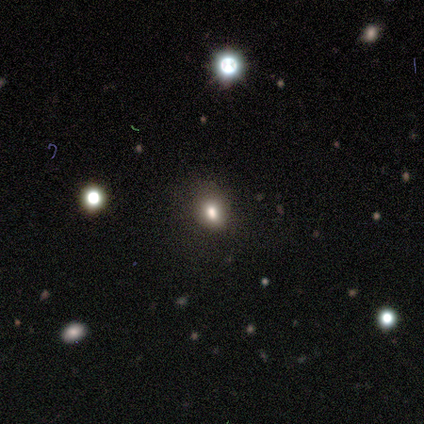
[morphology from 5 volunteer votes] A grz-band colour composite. It shows a smooth galaxy with no disk features (80%) that is round (50%, tied with in between). Merging: none (75%).